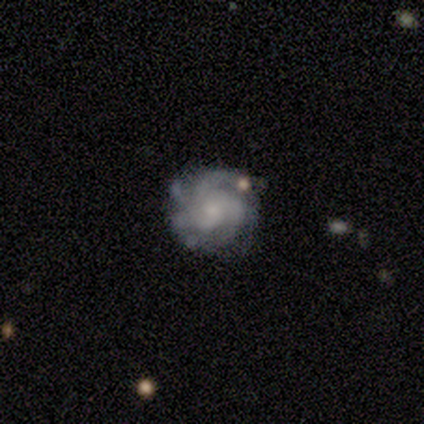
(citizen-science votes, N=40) This appears to be a featured or disk galaxy (78%) with no bar (94%), tight (71%) spiral arms (90%) and a small central bulge (65%). Merging: none (79%).